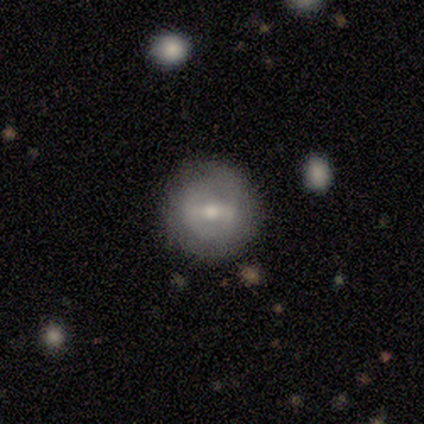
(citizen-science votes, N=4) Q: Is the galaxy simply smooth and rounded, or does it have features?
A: featured or disk — 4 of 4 (100%).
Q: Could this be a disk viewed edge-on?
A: no — 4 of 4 (100%).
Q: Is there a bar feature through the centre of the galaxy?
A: strong — 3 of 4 (75%).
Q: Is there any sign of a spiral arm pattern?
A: no — 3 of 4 (75%).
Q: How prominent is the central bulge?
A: small — 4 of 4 (100%).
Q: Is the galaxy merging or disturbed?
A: none — 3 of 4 (75%).